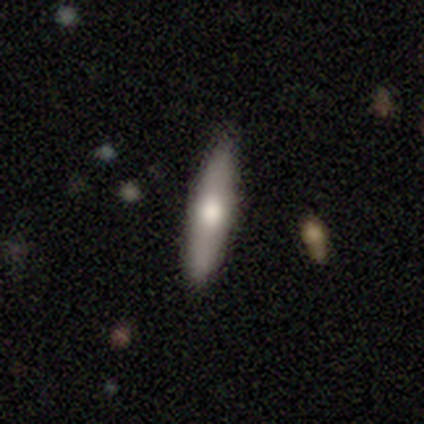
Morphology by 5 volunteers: Smooth or featured?
  - smooth: 40% * (tied)
  - featured or disk: 40% * (tied)
  - star or artifact: 20%
How rounded?
  - cigar-shaped: 100% *
  - round: 0%
  - in between: 0%
Merging?
  - none: 75% *
  - minor disturbance: 25%
  - major disturbance: 0%
  - merger: 0%